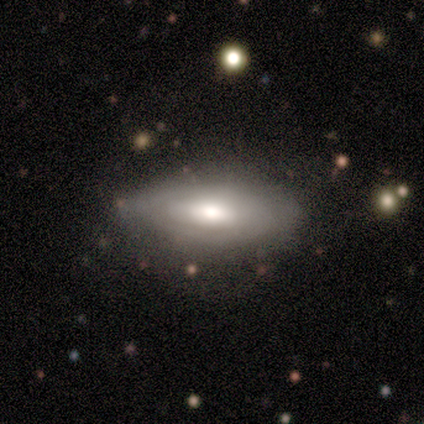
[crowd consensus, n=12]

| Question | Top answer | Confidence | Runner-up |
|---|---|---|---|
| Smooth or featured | smooth | 50% | tied: featured or disk (50%) |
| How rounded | in between | 83% | cigar-shaped (17%) |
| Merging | none | 83% | minor disturbance (17%) |